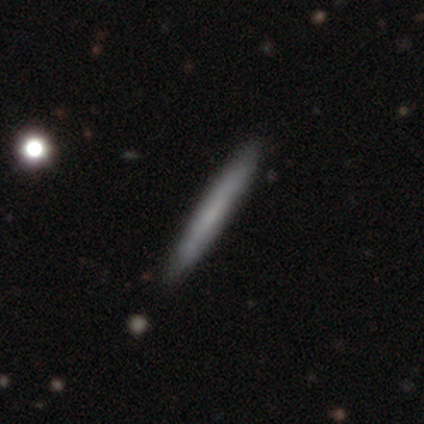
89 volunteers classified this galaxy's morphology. Q: Smooth or featured?
A: smooth (57%); runner-up: featured or disk (36%)
Q: How rounded?
A: cigar-shaped (100%)
Q: Merging?
A: none (90%); runner-up: minor disturbance (8%)